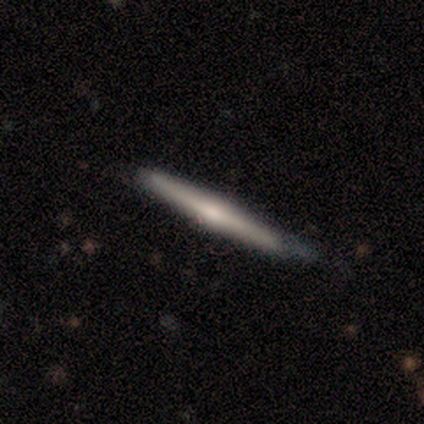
Morphology: type=featured or disk (66%); edge-on=yes (100%); edge-on bulge=rounded (80%); merging=none (72%).